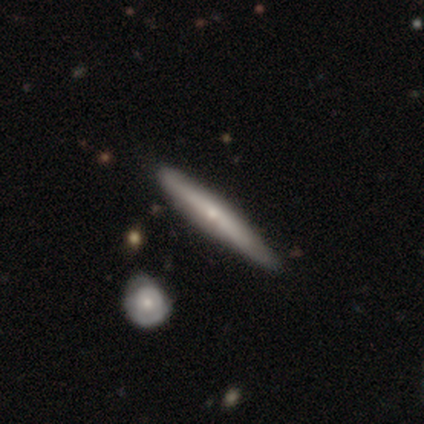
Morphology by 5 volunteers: smooth_or_featured: featured or disk (p=0.80) [alt: smooth p=0.20]
disk_edge_on: yes (p=1.00)
edge_on_bulge: none (p=0.50) [tied with: rounded p=0.50]
merging: none (p=0.80) [alt: merger p=0.20]